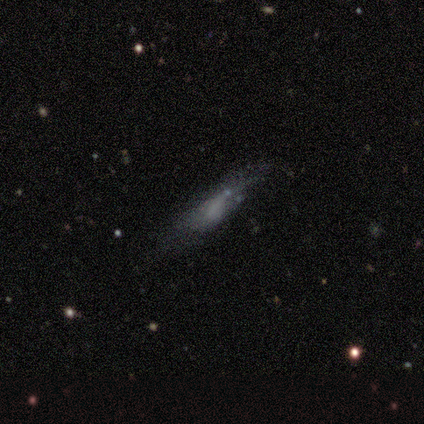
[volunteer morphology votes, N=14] This appears to be a smooth galaxy with no disk features (64%) that is cigar-shaped (78%). Merging: minor disturbance (50%).